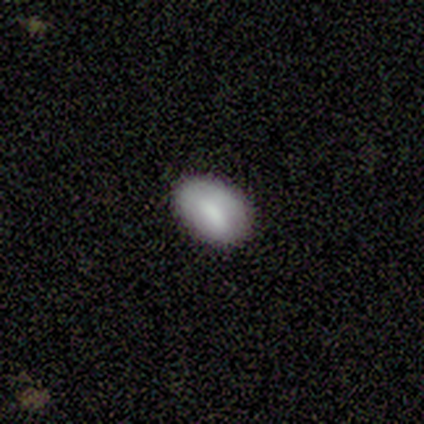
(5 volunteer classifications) Morphology: type=smooth (80%); roundness=in between (100%); merging=none (100%).